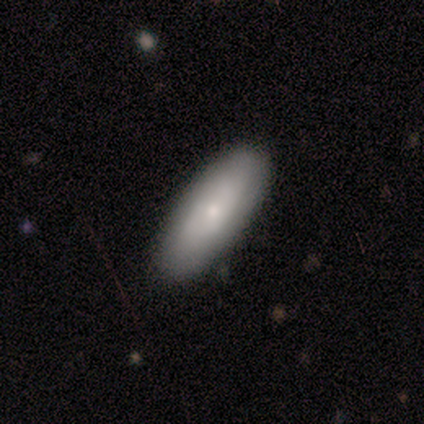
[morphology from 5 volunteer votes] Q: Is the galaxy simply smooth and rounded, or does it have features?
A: smooth — 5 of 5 (100%).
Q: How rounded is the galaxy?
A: in between — 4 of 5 (80%).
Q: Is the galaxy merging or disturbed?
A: none — 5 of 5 (100%).